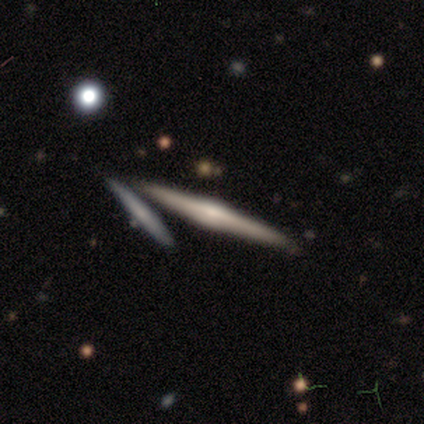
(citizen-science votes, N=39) Morphology: type=featured or disk (69%); edge-on=yes (100%); edge-on bulge=rounded (78%); merging=none (81%).